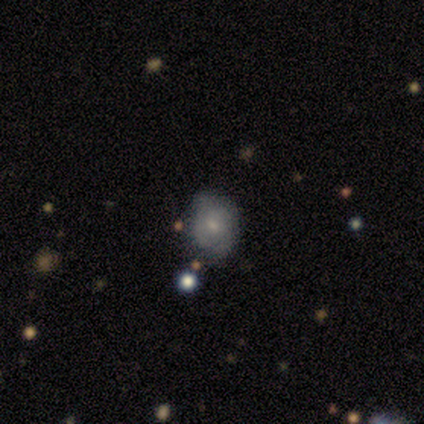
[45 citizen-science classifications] Smooth or featured?
  - smooth: 53% *
  - featured or disk: 29%
  - star or artifact: 18%
How rounded?
  - round: 50% * (tied)
  - in between: 50% * (tied)
  - cigar-shaped: 0%
Merging?
  - none: 73% *
  - minor disturbance: 22%
  - major disturbance: 3%
  - merger: 3%